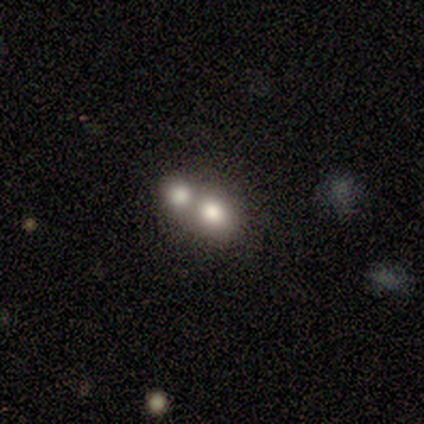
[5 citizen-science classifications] Smooth or featured? smooth (80%)
How rounded? round (100%)
Merging? merger (60%)